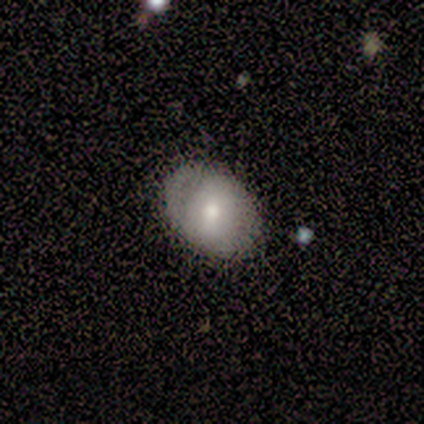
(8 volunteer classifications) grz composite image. It shows a smooth galaxy with no disk features (50%, tied with featured or disk) that is in between round and cigar-shaped (75%). Merging: none (50%, tied with minor disturbance).